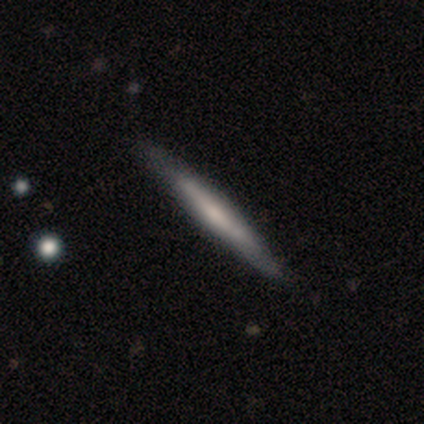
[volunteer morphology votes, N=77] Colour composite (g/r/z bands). It shows a featured or disk galaxy (57%) viewed edge-on (98%) with no central bulge (60%). Merging: none (36%).